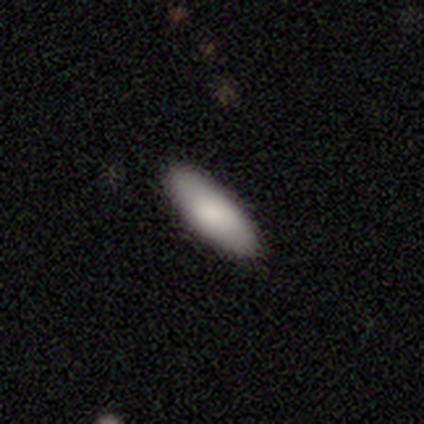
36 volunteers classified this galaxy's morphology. This is clearly a smooth galaxy (83%). How rounded: clearly in between (87%). Merging: clearly none (88%).